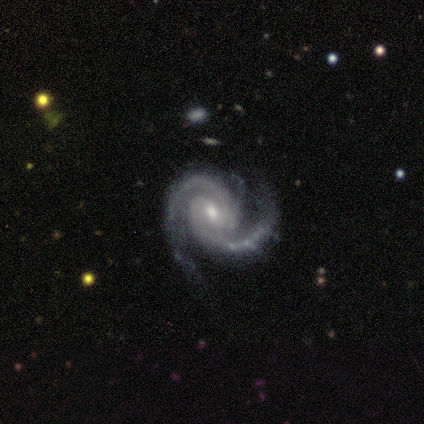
A featured or disk galaxy (100%) with a weak bar (40%, tied with no), 2 (100%) medium (60%) spiral arms (100%) and a moderate central bulge (60%).

Vote fractions:
- Smooth or featured? featured or disk: 100% / smooth: 0% / star or artifact: 0%
- Edge-on disk? no: 100% / yes: 0%
- Bar? weak: 40% (tied) / no: 40% (tied) / strong: 20%
- Spiral arms? yes: 100% / no: 0%
- Spiral winding? medium: 60% / tight: 40% / loose: 0%
- Spiral arm count? 2: 100% / 1: 0% / 3: 0% / 4: 0% / more than 4: 0% / can't tell: 0%
- Bulge size? moderate: 60% / small: 20% / none: 20% / dominant: 0% / large: 0%
- Merging? none: 40% (tied) / minor disturbance: 40% (tied) / merger: 20% / major disturbance: 0%